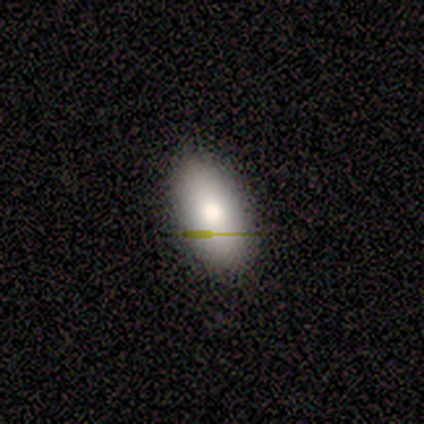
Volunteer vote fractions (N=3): Smooth or featured? 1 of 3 (33%, tied with featured or disk and star or artifact) said smooth. How rounded? 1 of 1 (100%) said in between. Merging? 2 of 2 (100%) said none.